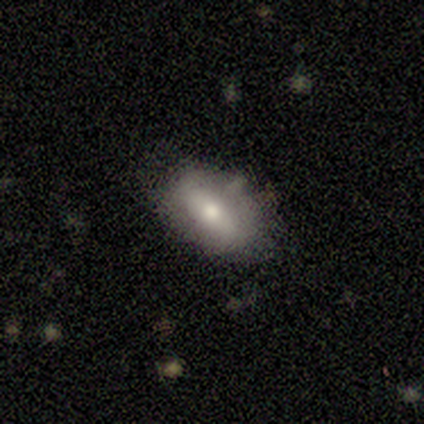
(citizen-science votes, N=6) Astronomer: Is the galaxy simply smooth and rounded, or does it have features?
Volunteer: smooth — 50%, tied with featured or disk at 50%.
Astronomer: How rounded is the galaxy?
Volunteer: in between — 100%.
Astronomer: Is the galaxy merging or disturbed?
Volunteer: none — 83%.